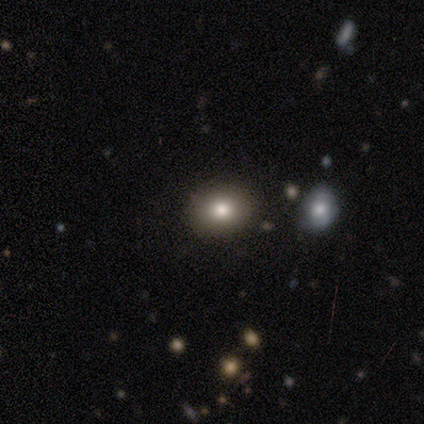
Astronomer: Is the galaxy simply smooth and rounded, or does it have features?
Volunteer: smooth — 100%.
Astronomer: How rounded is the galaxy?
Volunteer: round — 60% (runner-up: in between, 40%).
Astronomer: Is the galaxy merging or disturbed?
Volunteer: none — 100%.